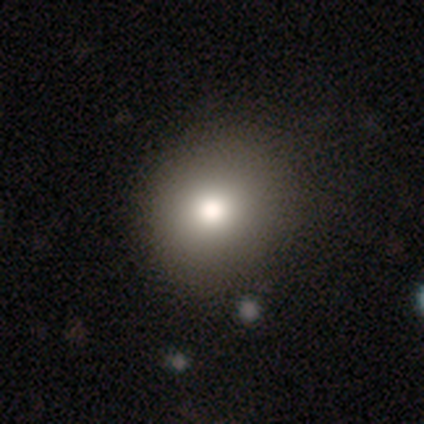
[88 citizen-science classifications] smooth 67%, star or artifact 18%, featured or disk 15%. Down the decision tree: how rounded — round (83%); merging — none (75%).